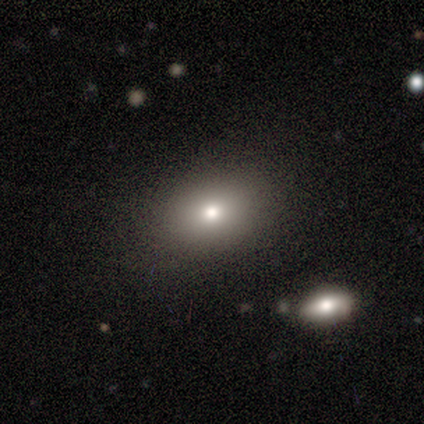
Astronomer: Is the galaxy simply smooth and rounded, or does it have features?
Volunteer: smooth — 60% (runner-up: featured or disk, 40%).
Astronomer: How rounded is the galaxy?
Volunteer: in between — 67%.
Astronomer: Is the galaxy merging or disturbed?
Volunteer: none — 100%.